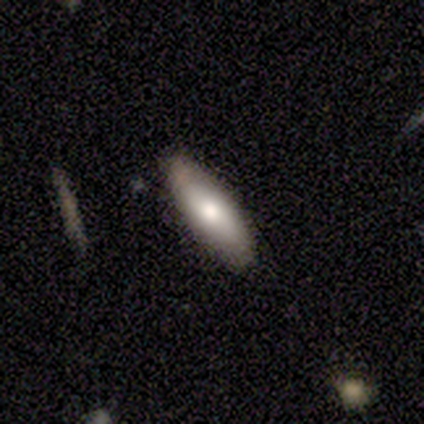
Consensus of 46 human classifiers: Volunteers were most divided on "how rounded": in between: 60%, cigar-shaped: 40%, round: 0%. More confident: merging — none (84%); smooth or featured — smooth (76%).